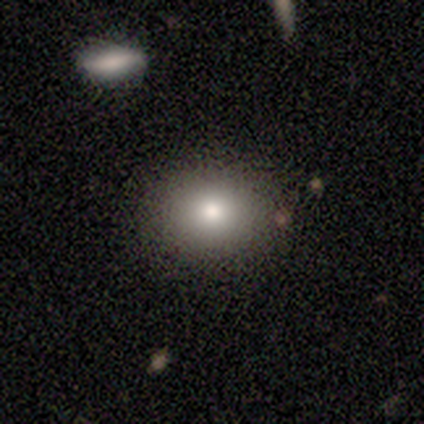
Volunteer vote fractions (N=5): Smooth or featured? 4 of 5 (80%) said smooth. How rounded? 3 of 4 (75%) said round. Merging? 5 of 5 (100%) said none.